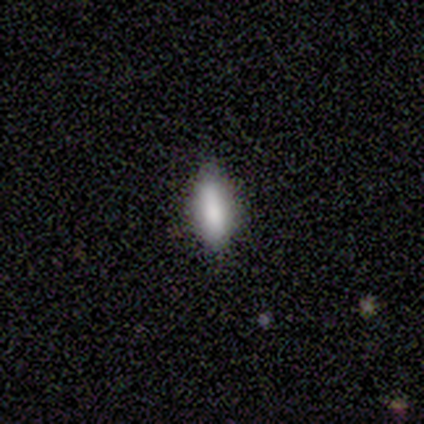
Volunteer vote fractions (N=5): Morphology: type=smooth (100%); roundness=cigar-shaped (60%); merging=none (80%).